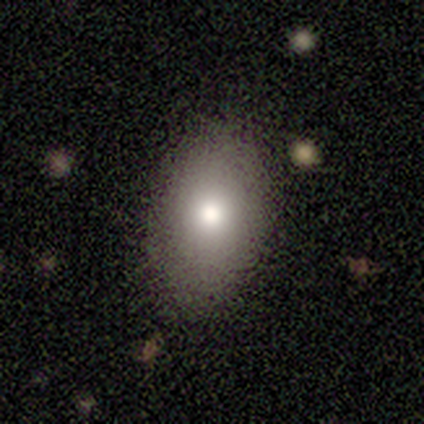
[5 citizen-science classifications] Q: Smooth or featured?
A: smooth (60%); runner-up: star or artifact (40%)
Q: How rounded?
A: in between (67%); runner-up: round (33%)
Q: Merging?
A: none (67%); runner-up: minor disturbance (33%)